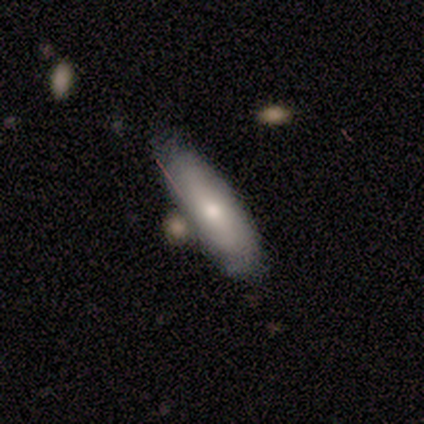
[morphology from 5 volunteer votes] Overall: smooth (80%). How rounded: in between (75%). Merging: none (60%; minor disturbance 40%).